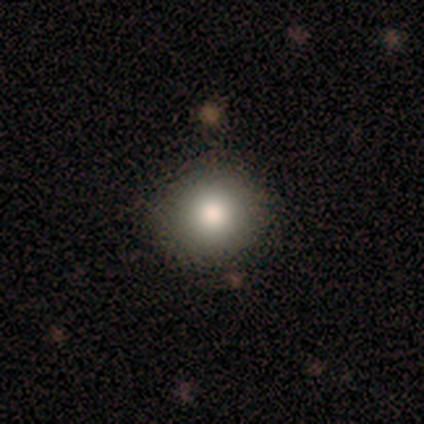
Smooth or featured? smooth (80%)
How rounded? round (100%)
Merging? none (100%)